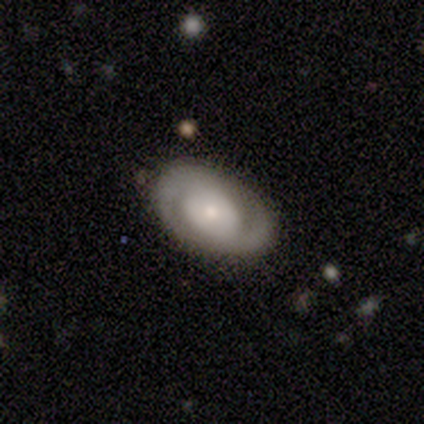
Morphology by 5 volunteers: Volunteers were most divided on "smooth or featured": featured or disk: 60%, smooth: 40%, star or artifact: 0%. More confident: edge-on disk — no (100%); bar — no (100%); spiral arms — yes (100%); spiral arm count — 2 (100%); merging — none (80%); spiral winding — tight (67%); bulge size — small (67%).